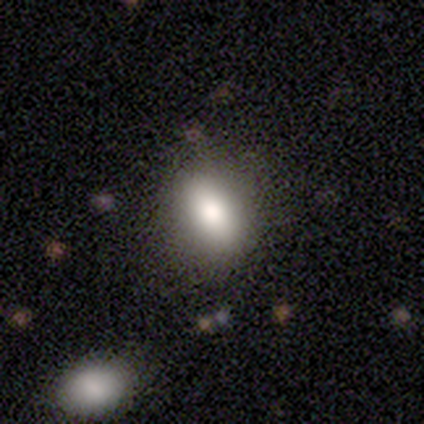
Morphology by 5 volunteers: Smooth or featured: smooth — 60% (featured or disk — 40%)
How rounded: in between — 100%
Merging: none — 80% (merger — 20%)